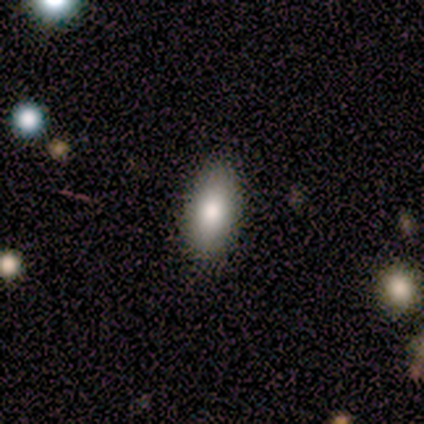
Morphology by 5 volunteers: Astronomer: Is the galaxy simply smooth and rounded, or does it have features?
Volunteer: smooth — 80%.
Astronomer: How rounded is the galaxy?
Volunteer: in between — 100%.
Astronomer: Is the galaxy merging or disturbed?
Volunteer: none — 100%.